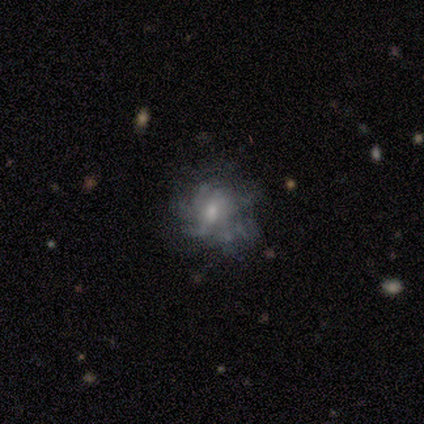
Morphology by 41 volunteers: Smooth or featured: featured or disk — 76% (smooth — 17%)
Edge-on disk: no — 94% (yes — 6%)
Bar: no — 62% (weak — 34%)
Spiral arms: no — 55% (yes — 45%)
Bulge size: moderate — 52% (small — 31%)
Merging: none — 66% (minor disturbance — 18%)